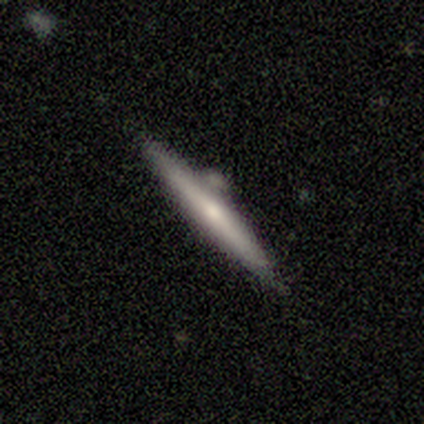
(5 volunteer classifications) smooth-or-featured: smooth: 60% | featured or disk: 40% | star or artifact: 0%
  how-rounded: cigar-shaped: 100% | round: 0% | in between: 0%
  merging: minor disturbance: 60% | none: 40% | major disturbance: 0% | merger: 0%